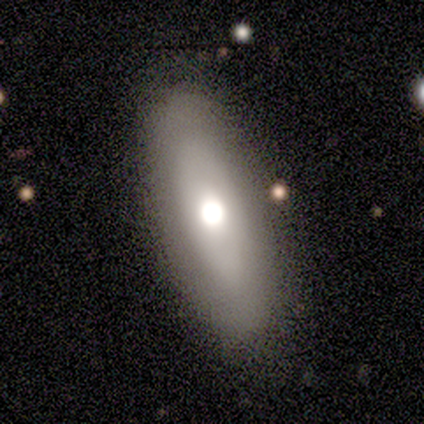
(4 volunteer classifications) Overall: featured or disk (50%; smooth 25%). Edge-on disk: yes (50%, tied with no). Edge-on bulge: none (100%). Merging: none (33%, tied with minor disturbance and merger).